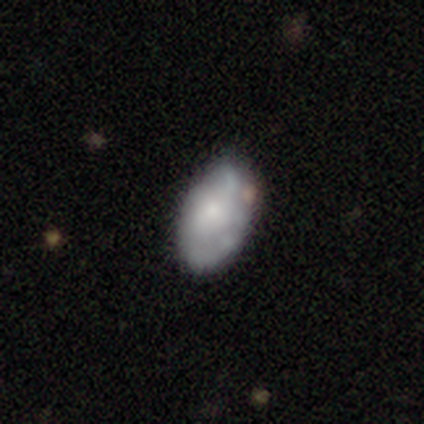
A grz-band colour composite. It shows a featured or disk galaxy (50%) with no bar (98%), no spiral arms (60%) and a small central bulge (35%). Merging: none (29%).